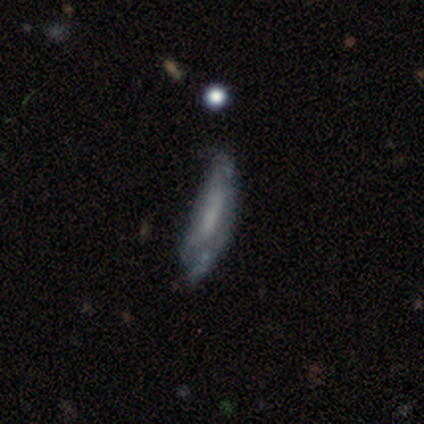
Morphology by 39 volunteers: Smooth or featured? featured or disk (44%)
Edge-on disk? no (65%)
Bar? no (64%)
Spiral arms? yes (55%)
Spiral winding? tight (50%, tied with medium)
Spiral arm count? can't tell (50%)
Bulge size? none (45%)
Merging? none (42%)